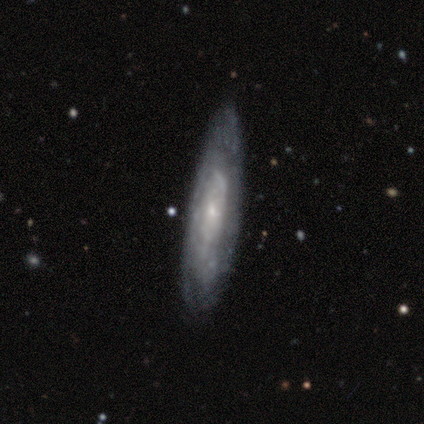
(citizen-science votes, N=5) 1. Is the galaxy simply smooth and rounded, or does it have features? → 60% smooth, 40% featured or disk, 0% star or artifact.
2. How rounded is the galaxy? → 67% in between, 33% cigar-shaped, 0% round.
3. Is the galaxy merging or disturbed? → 80% none, 20% minor disturbance, 0% major disturbance, 0% merger.